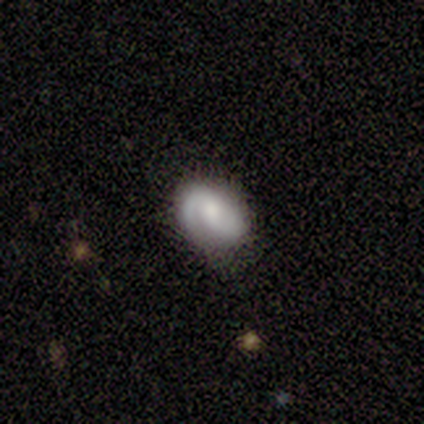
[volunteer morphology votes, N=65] This is likely a featured or disk galaxy (66%). It is clearly not viewed edge-on (93%). Bar: likely no (62%). Spiral arm pattern: clearly yes (100%). Spiral arm count: likely 2 (62%). Spiral winding: possibly tight (50%). Central bulge: likely moderate (60%). Merging: likely none (66%).